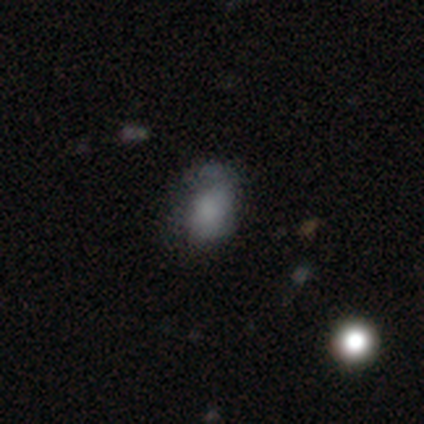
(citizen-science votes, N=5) A smooth galaxy with no disk features (60%) that is in between round and cigar-shaped (100%). Merging: none (100%).